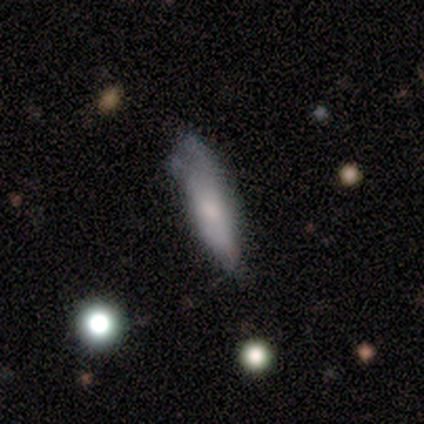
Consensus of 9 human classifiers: Smooth or featured?
  - smooth: 67% *
  - featured or disk: 33%
  - star or artifact: 0%
How rounded?
  - in between: 50% * (tied)
  - cigar-shaped: 50% * (tied)
  - round: 0%
Merging?
  - minor disturbance: 44% *
  - none: 33%
  - major disturbance: 22%
  - merger: 0%